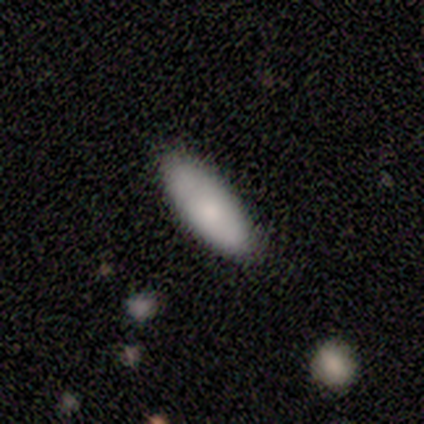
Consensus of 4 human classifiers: smooth 75%, featured or disk 25%, star or artifact 0%. Down the decision tree: how rounded — cigar-shaped (67%); merging — none (50%, tied with minor disturbance).